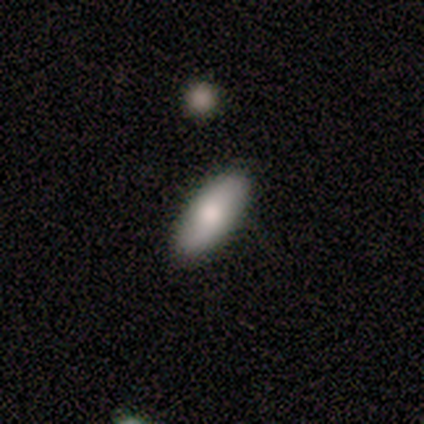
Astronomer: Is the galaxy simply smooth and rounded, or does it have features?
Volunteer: smooth — 100%.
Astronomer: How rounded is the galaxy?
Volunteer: in between — 100%.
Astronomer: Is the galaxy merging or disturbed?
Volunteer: none — 100%.